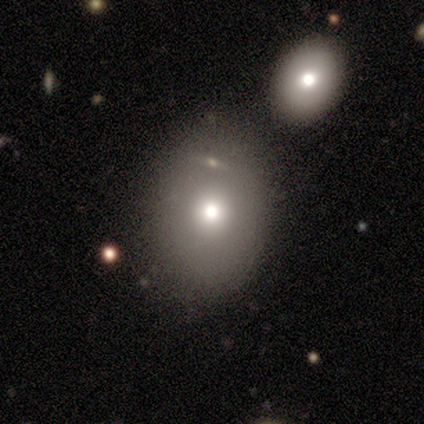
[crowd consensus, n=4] Morphology: type=smooth (100%); roundness=round (50%, tied with in between); merging=none (75%).